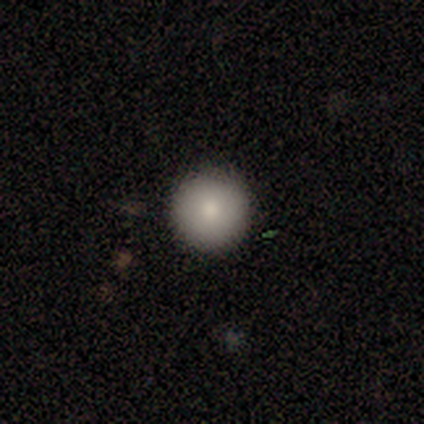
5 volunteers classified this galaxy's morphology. smooth_or_featured: smooth (p=1.00)
how_rounded: round (p=1.00)
merging: none (p=1.00)